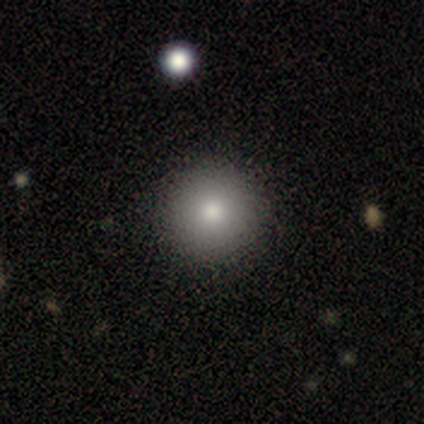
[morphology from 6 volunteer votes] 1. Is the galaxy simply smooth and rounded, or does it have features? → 83% smooth, 17% star or artifact, 0% featured or disk.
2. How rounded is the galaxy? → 100% round, 0% in between, 0% cigar-shaped.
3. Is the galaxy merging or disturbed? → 100% none, 0% minor disturbance, 0% major disturbance, 0% merger.